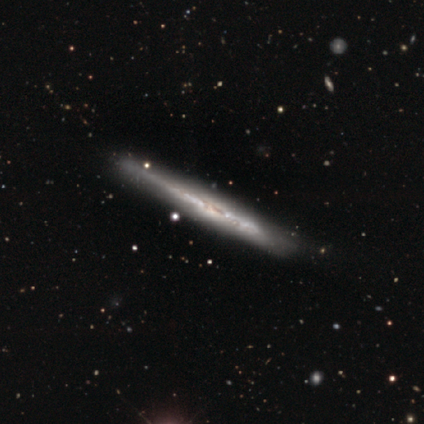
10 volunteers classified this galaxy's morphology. Overall: featured or disk (80%). Edge-on disk: yes (100%). Edge-on bulge: none (100%). Merging: none (100%).